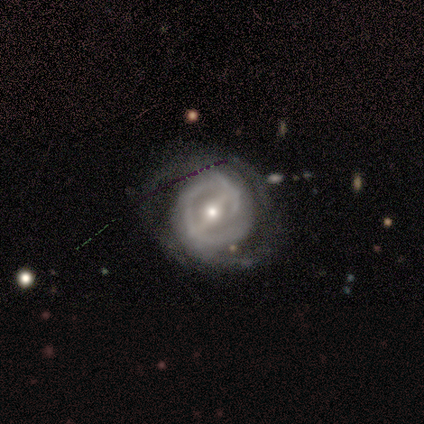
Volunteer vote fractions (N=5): Smooth or featured? 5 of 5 (100%) said featured or disk. Edge-on disk? 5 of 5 (100%) said no. Bar? 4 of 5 (80%) said strong. Spiral arms? 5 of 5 (100%) said yes. Spiral winding? 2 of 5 (40%, tied with loose) said tight. Spiral arm count? 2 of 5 (40%, tied with can't tell) said 2. Bulge size? 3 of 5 (60%) said moderate. Merging? 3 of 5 (60%) said none.